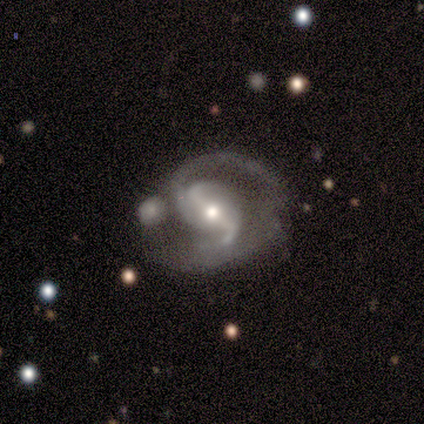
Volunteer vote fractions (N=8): Q: Smooth or featured?
A: featured or disk (100%)
Q: Edge-on disk?
A: no (100%)
Q: Bar?
A: weak (62%); runner-up: strong (25%)
Q: Spiral arms?
A: yes (100%)
Q: Spiral winding?
A: medium (88%); runner-up: loose (12%)
Q: Spiral arm count?
A: 2 (62%); runner-up: 1 (12%)
Q: Bulge size?
A: moderate (75%); runner-up: large (12%)
Q: Merging?
A: none (50%); runner-up: major disturbance (25%)